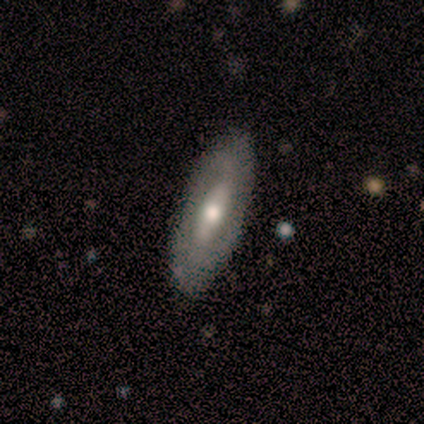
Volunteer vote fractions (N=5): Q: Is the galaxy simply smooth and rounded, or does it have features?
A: featured or disk — 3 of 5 (60%).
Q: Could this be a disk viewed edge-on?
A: yes — 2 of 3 (67%).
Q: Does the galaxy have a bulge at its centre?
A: boxy — 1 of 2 (50%, tied with rounded).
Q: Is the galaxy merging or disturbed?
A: none — 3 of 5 (60%).